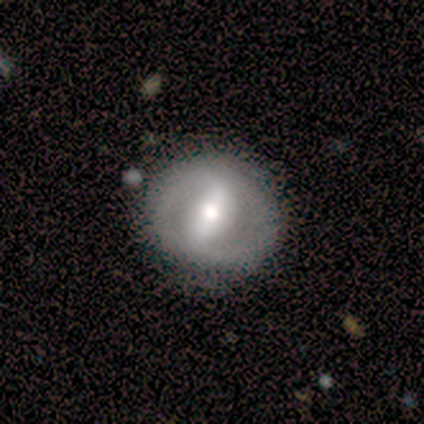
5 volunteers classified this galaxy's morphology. Smooth or featured? 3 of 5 (60%) said featured or disk. Edge-on disk? 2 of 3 (67%) said no. Bar? 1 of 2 (50%, tied with weak) said strong. Spiral arms? 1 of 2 (50%, tied with no) said yes. Spiral winding? 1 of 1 (100%) said tight. Spiral arm count? 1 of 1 (100%) said 2. Bulge size? 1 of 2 (50%, tied with small) said moderate. Merging? 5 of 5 (100%) said none.